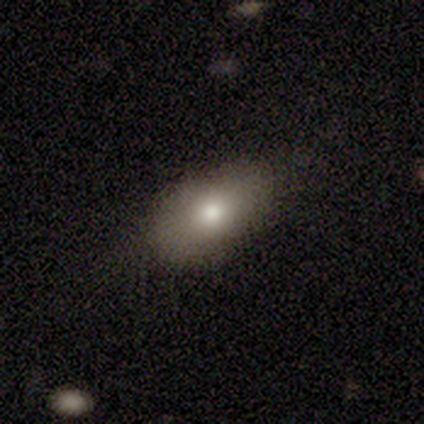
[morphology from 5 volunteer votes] smooth 60%, featured or disk 20%, star or artifact 20%. Down the decision tree: how rounded — in between (100%); merging — none (75%).